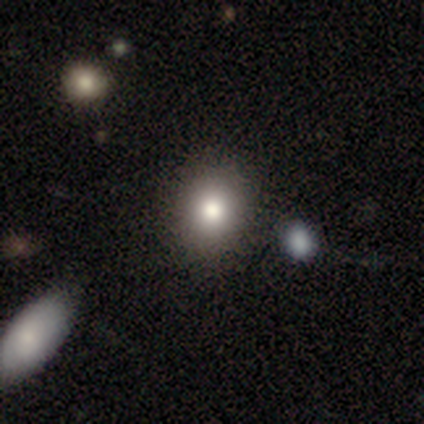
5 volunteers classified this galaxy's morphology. smooth_or_featured: smooth (p=1.00)
how_rounded: round (p=0.60) [alt: in between p=0.40]
merging: none (p=0.80) [alt: merger p=0.20]